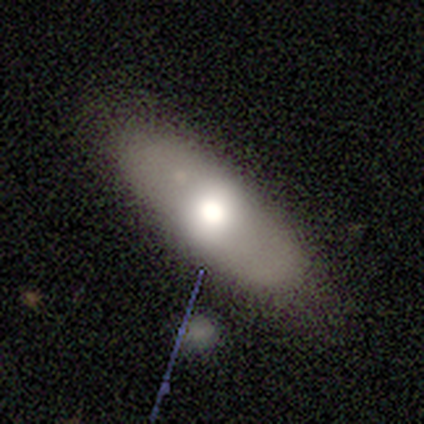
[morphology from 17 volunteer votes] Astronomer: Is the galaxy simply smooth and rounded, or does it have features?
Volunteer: smooth — 47% (runner-up: featured or disk, 41%).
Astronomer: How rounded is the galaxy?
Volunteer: in between — 88%.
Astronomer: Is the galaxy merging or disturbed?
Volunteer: none — 87%.